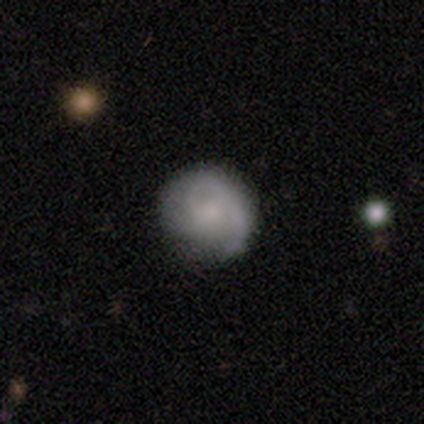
This is clearly a featured or disk galaxy (86%). It is clearly not viewed edge-on (100%). Bar: clearly no (83%). Spiral arm pattern: clearly yes (100%). Spiral arm count: possibly 2 (50%). Spiral winding: possibly medium (50%). Central bulge: clearly small (83%). Merging: possibly minor disturbance (50%).